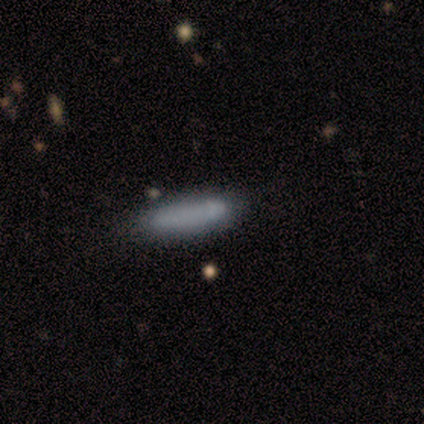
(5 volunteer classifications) Smooth or featured?
  - smooth: 100% *
  - featured or disk: 0%
  - star or artifact: 0%
How rounded?
  - cigar-shaped: 60% *
  - in between: 40%
  - round: 0%
Merging?
  - none: 80% *
  - minor disturbance: 20%
  - major disturbance: 0%
  - merger: 0%